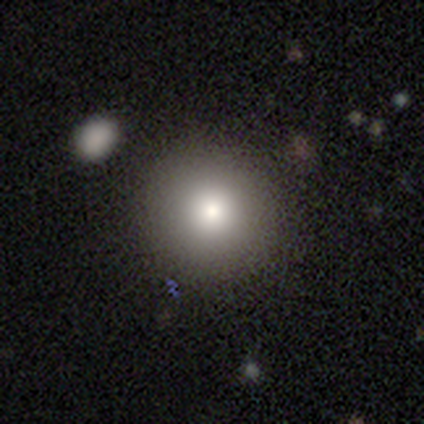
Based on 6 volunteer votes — smooth_or_featured: smooth (p=1.00)
how_rounded: round (p=1.00)
merging: none (p=0.83) [alt: major disturbance p=0.17]